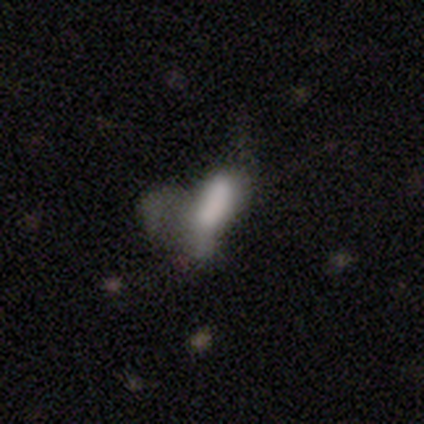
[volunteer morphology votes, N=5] Volunteers were most divided on "merging": major disturbance: 50%, none: 25%, minor disturbance: 25%, merger: 0%. More confident: smooth or featured — smooth (80%); how rounded — in between (75%).